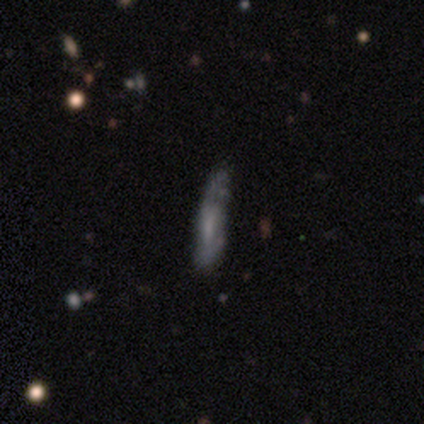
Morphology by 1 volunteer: Consensus on every question: smooth or featured — smooth (100%); how rounded — in between (100%); merging — minor disturbance (100%).